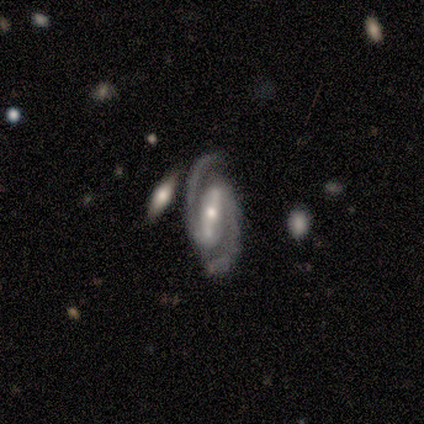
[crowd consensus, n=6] Q: Smooth or featured?
A: featured or disk (100%)
Q: Edge-on disk?
A: no (100%)
Q: Bar?
A: strong (100%)
Q: Spiral arms?
A: yes (100%)
Q: Spiral winding?
A: medium (67%); runner-up: tight (33%)
Q: Spiral arm count?
A: 2 (100%)
Q: Bulge size?
A: moderate (67%); runner-up: small (33%)
Q: Merging?
A: none (83%); runner-up: major disturbance (17%)